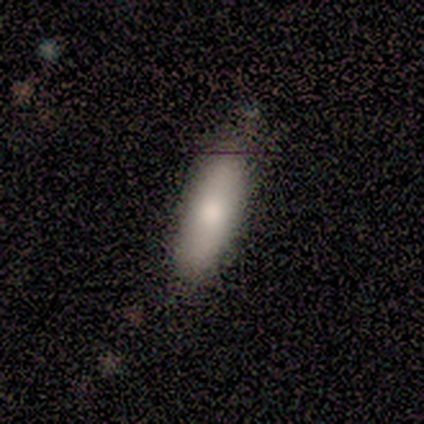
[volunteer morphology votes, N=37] Smooth or featured: smooth — 76% (featured or disk — 16%)
How rounded: in between — 57% (cigar-shaped — 43%)
Merging: none — 59% (minor disturbance — 32%)